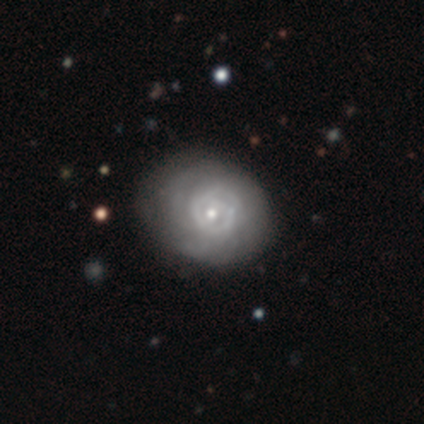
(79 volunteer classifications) Smooth or featured: featured or disk — 78% (smooth — 18%)
Edge-on disk: no — 100%
Bar: no — 84% (weak — 16%)
Spiral arms: yes — 71% (no — 29%)
Spiral winding: tight — 70% (medium — 25%)
Spiral arm count: can't tell — 50% (2 — 25%)
Bulge size: small — 65% (moderate — 32%)
Merging: none — 37% (minor disturbance — 9%)